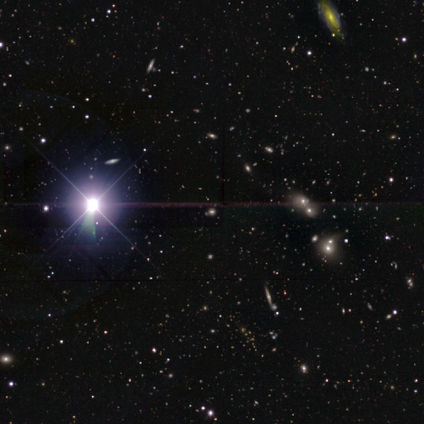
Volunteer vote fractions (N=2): Smooth or featured?
  - smooth: 50% * (tied)
  - star or artifact: 50% * (tied)
  - featured or disk: 0%
How rounded?
  - in between: 100% *
  - round: 0%
  - cigar-shaped: 0%
Merging?
  - none: 100% *
  - minor disturbance: 0%
  - major disturbance: 0%
  - merger: 0%